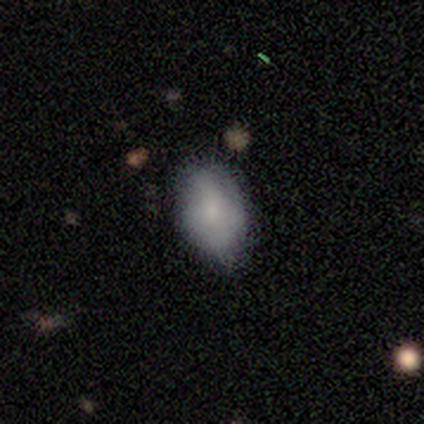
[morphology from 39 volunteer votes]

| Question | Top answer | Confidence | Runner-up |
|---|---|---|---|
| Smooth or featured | smooth | 77% | featured or disk (23%) |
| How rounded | in between | 90% | round (10%) |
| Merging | none | 79% | minor disturbance (21%) |